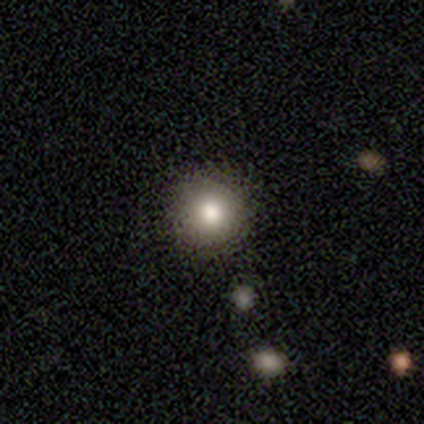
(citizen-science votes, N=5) smooth-or-featured: smooth: 100% | featured or disk: 0% | star or artifact: 0%
  how-rounded: round: 100% | in between: 0% | cigar-shaped: 0%
  merging: none: 80% | minor disturbance: 20% | major disturbance: 0% | merger: 0%